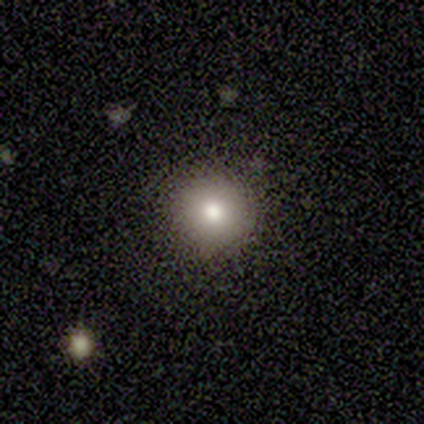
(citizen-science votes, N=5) A smooth galaxy with no disk features (100%) that is round (100%). Merging: none (100%).